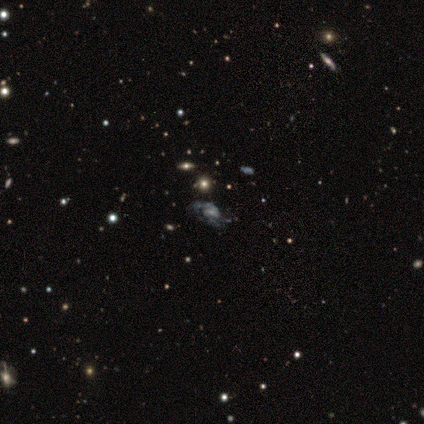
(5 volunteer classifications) Morphology: type=star or artifact (60%).